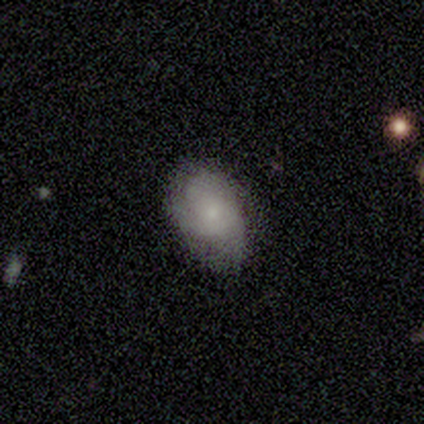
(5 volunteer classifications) A smooth galaxy with no disk features (80%) that is in between round and cigar-shaped (100%).

Vote fractions:
- Smooth or featured? smooth: 80% / featured or disk: 20% / star or artifact: 0%
- How rounded? in between: 100% / round: 0% / cigar-shaped: 0%
- Merging? none: 80% / minor disturbance: 20% / major disturbance: 0% / merger: 0%